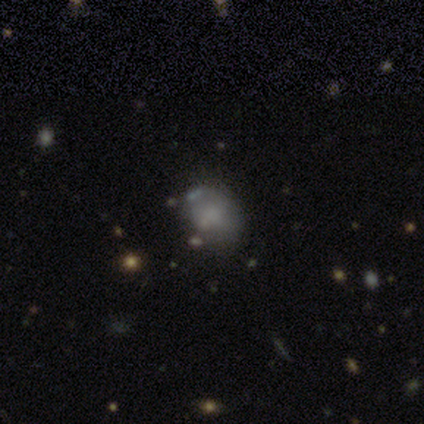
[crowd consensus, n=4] smooth-or-featured: smooth: 50% | featured or disk: 25% | star or artifact: 25%
  how-rounded: in between: 100% | round: 0% | cigar-shaped: 0%
  merging: minor disturbance: 67% | none: 33% | major disturbance: 0% | merger: 0%